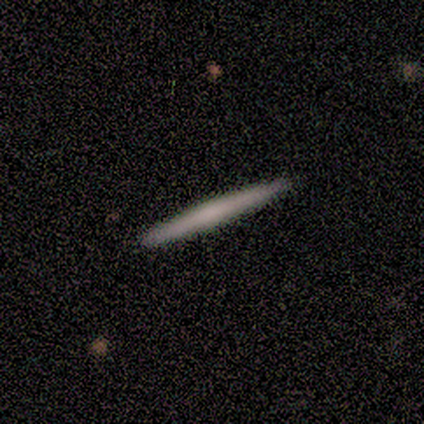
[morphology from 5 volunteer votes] Smooth or featured? smooth (60%)
How rounded? cigar-shaped (100%)
Merging? none (100%)